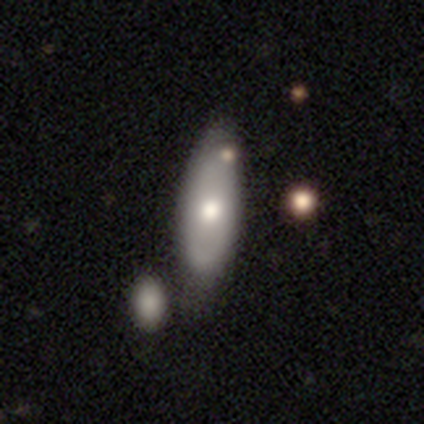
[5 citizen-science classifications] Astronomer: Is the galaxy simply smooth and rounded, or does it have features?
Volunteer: smooth — 100%.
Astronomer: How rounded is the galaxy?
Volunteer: in between — 80%.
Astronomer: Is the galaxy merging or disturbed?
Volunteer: none — 60%.